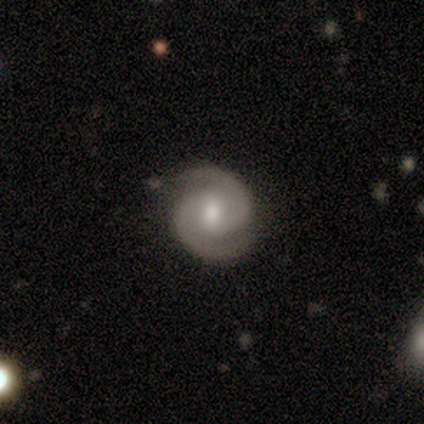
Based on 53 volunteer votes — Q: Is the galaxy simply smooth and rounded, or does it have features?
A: featured or disk — 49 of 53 (92%).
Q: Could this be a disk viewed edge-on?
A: no — 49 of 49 (100%).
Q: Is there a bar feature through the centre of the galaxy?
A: weak — 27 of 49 (55%).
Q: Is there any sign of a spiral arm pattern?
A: yes — 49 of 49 (100%).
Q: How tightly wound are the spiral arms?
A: tight — 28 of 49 (57%).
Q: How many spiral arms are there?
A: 2 — 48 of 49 (98%).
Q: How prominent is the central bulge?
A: moderate — 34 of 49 (69%).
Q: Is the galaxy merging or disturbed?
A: none — 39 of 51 (76%).